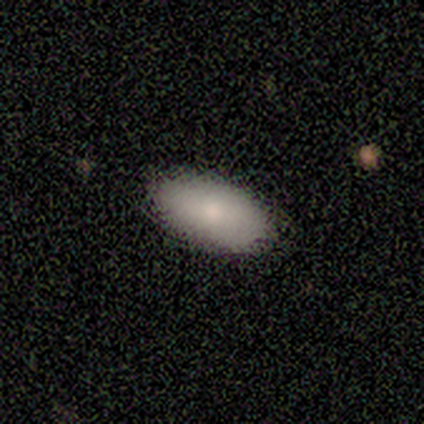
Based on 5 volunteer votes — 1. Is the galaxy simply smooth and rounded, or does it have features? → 80% smooth, 20% featured or disk, 0% star or artifact.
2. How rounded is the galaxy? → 100% in between, 0% round, 0% cigar-shaped.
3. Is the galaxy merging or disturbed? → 60% none, 20% minor disturbance, 20% merger, 0% major disturbance.